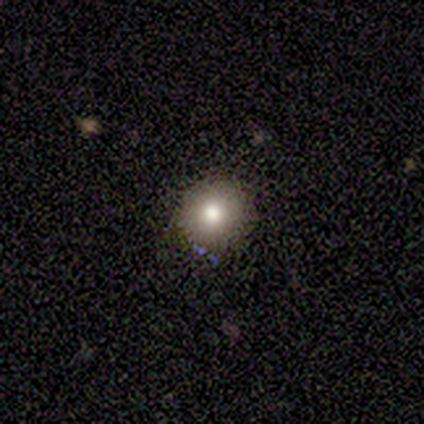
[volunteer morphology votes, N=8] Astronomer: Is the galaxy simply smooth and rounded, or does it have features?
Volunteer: smooth — 62%.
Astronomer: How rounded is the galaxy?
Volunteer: round — 100%.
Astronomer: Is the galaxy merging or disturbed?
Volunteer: none — 88%.